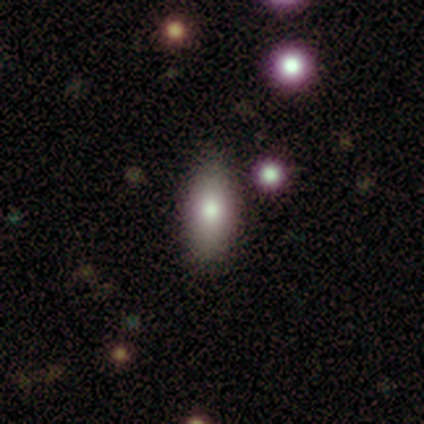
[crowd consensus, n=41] smooth_or_featured: smooth (p=0.76) [alt: featured or disk p=0.15]
how_rounded: in between (p=0.87) [alt: cigar-shaped p=0.10]
merging: none (p=0.92) [alt: minor disturbance p=0.08]